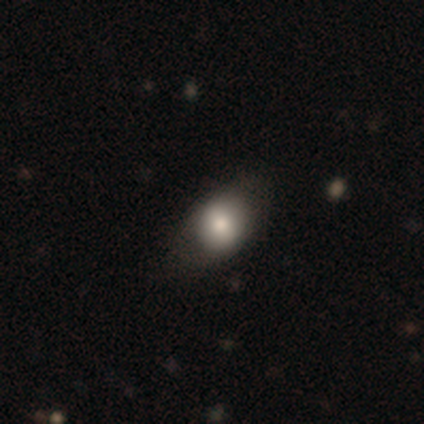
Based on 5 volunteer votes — Smooth or featured: smooth — 100%
How rounded: round — 100%
Merging: none — 100%